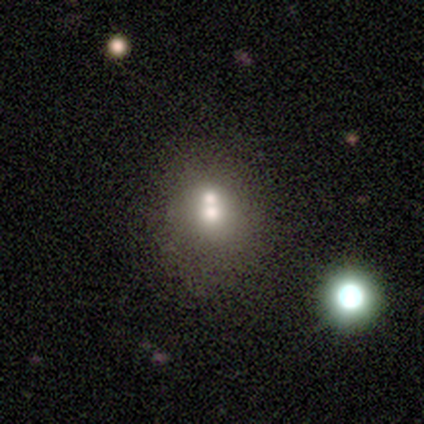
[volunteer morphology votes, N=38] This is possibly a smooth galaxy (58%). How rounded: possibly round (59%). Merging: likely merger (67%).